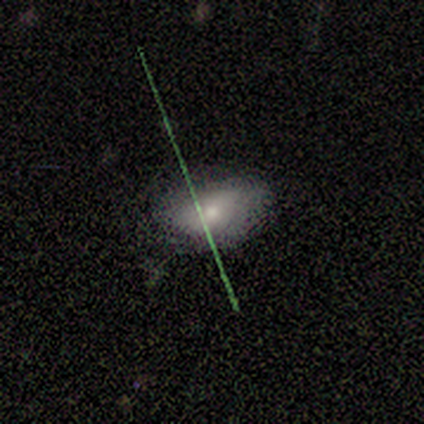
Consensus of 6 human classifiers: Smooth or featured?
  - smooth: 100% *
  - featured or disk: 0%
  - star or artifact: 0%
How rounded?
  - in between: 100% *
  - round: 0%
  - cigar-shaped: 0%
Merging?
  - none: 83% *
  - minor disturbance: 17%
  - major disturbance: 0%
  - merger: 0%